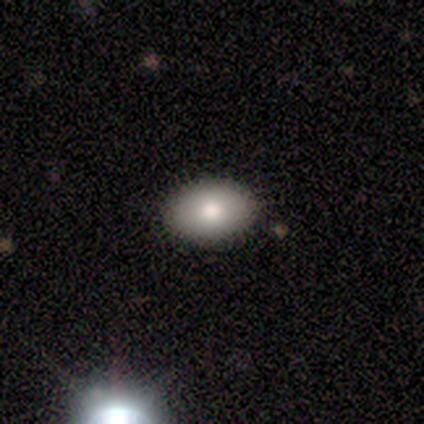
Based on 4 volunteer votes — Overall: smooth (50%; featured or disk 25%). How rounded: in between (100%). Merging: none (67%; merger 33%).